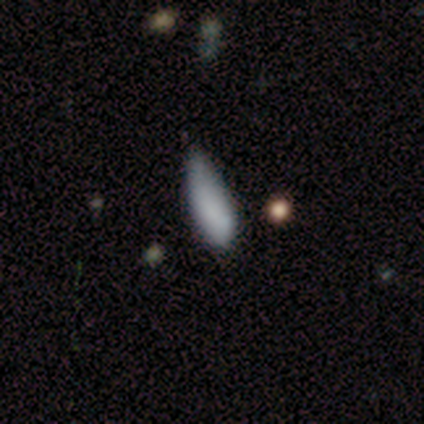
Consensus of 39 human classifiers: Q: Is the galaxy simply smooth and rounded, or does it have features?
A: smooth — 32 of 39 (82%).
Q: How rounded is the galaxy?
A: in between — 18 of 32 (56%).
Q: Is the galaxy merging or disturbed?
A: none — 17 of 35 (49%).